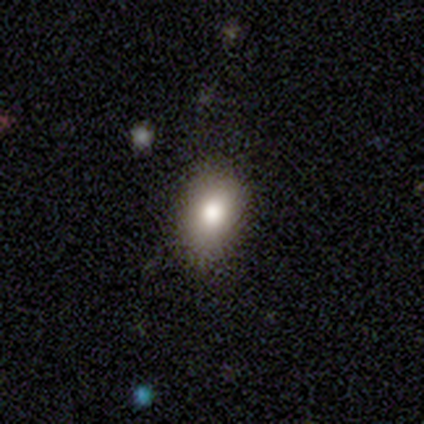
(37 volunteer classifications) smooth 70%, star or artifact 19%, featured or disk 11%. Down the decision tree: how rounded — in between (73%); merging — none (83%).